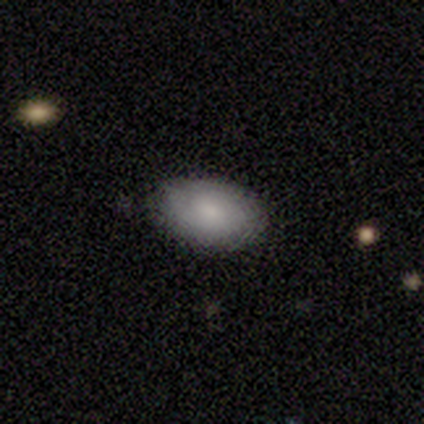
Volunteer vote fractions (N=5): Q: Smooth or featured?
A: smooth (80%); runner-up: featured or disk (20%)
Q: How rounded?
A: in between (100%)
Q: Merging?
A: none (80%); runner-up: minor disturbance (20%)